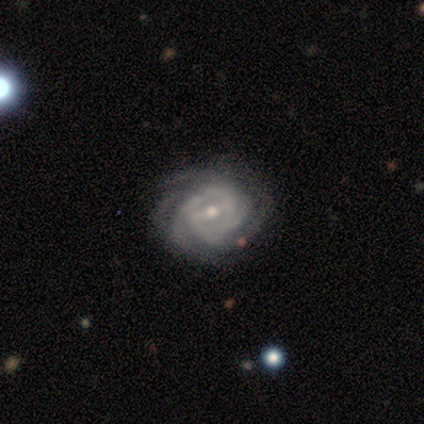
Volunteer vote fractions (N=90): Smooth or featured?
  - featured or disk: 90% *
  - star or artifact: 8%
  - smooth: 2%
Edge-on disk?
  - no: 98% *
  - yes: 2%
Bar?
  - weak: 49% *
  - strong: 37%
  - no: 14%
Spiral arms?
  - yes: 97% *
  - no: 3%
Spiral winding?
  - tight: 66% *
  - medium: 29%
  - loose: 5%
Spiral arm count?
  - can't tell: 36% *
  - 4: 29%
  - 3: 17%
  - more than 4: 14%
  - 2: 4%
  - 1: 0%
Bulge size?
  - small: 58% *
  - moderate: 42%
  - dominant: 0%
  - large: 0%
  - none: 0%
Merging?
  - none: 83% *
  - minor disturbance: 10%
  - major disturbance: 5%
  - merger: 2%